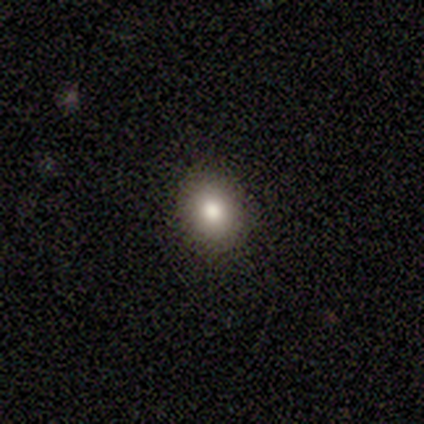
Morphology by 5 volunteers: Q: Smooth or featured?
A: smooth (100%)
Q: How rounded?
A: in between (60%); runner-up: round (40%)
Q: Merging?
A: none (80%); runner-up: minor disturbance (20%)